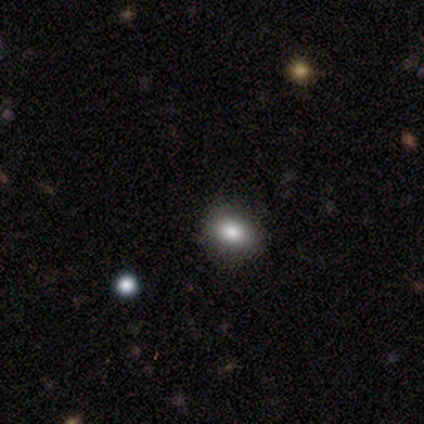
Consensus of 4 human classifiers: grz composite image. It shows a smooth galaxy with no disk features (50%, tied with star or artifact) that is in between round and cigar-shaped (100%). Merging: none (50%, tied with minor disturbance).